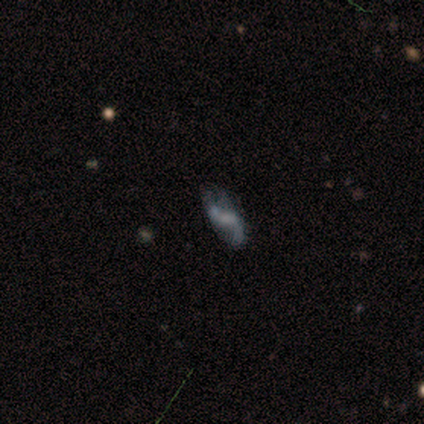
Smooth or featured? 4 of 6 (67%) said featured or disk. Edge-on disk? 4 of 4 (100%) said no. Bar? 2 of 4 (50%, tied with no) said weak. Spiral arms? 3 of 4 (75%) said yes. Spiral winding? 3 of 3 (100%) said loose. Spiral arm count? 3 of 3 (100%) said 2. Bulge size? 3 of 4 (75%) said none. Merging? 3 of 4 (75%) said none.